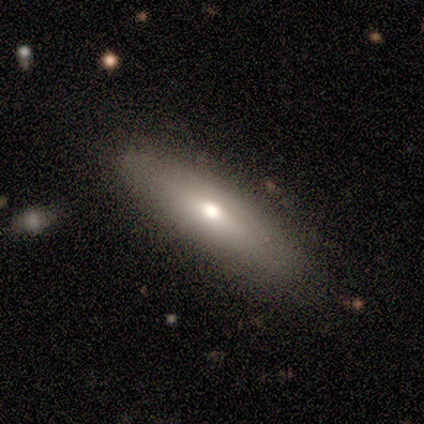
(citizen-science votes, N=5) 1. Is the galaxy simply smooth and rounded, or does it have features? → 80% smooth, 20% featured or disk, 0% star or artifact.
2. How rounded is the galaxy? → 75% in between, 25% cigar-shaped, 0% round.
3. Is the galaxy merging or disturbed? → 100% none, 0% minor disturbance, 0% major disturbance, 0% merger.